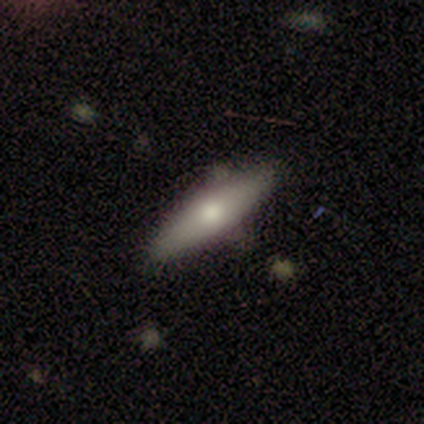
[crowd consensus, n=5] Overall: smooth (40%, tied with star or artifact). How rounded: in between (50%, tied with cigar-shaped). Merging: none (67%; merger 33%).